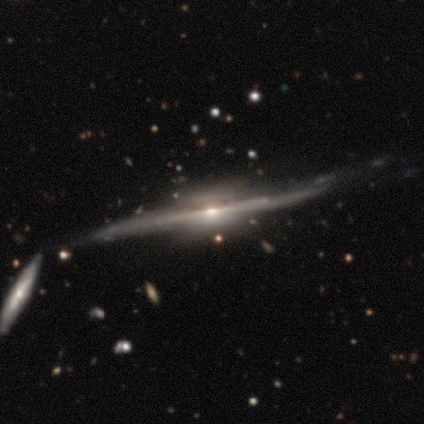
Smooth or featured: featured or disk — 95% (smooth — 3%)
Edge-on disk: yes — 95% (no — 5%)
Edge-on bulge: boxy — 51% (rounded — 43%)
Merging: none — 58% (minor disturbance — 24%)